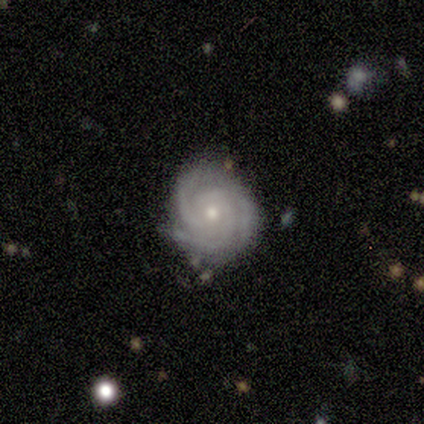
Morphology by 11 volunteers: A featured or disk galaxy (100%) with no bar (64%), 3 (64%) tight (82%) spiral arms (100%) and a small central bulge (55%).

Vote fractions:
- Smooth or featured? featured or disk: 100% / smooth: 0% / star or artifact: 0%
- Edge-on disk? no: 100% / yes: 0%
- Bar? no: 64% / weak: 36% / strong: 0%
- Spiral arms? yes: 100% / no: 0%
- Spiral winding? tight: 82% / medium: 18% / loose: 0%
- Spiral arm count? 3: 64% / 2: 18% / can't tell: 18% / 1: 0% / 4: 0% / more than 4: 0%
- Bulge size? small: 55% / moderate: 45% / dominant: 0% / large: 0% / none: 0%
- Merging? none: 82% / minor disturbance: 18% / major disturbance: 0% / merger: 0%